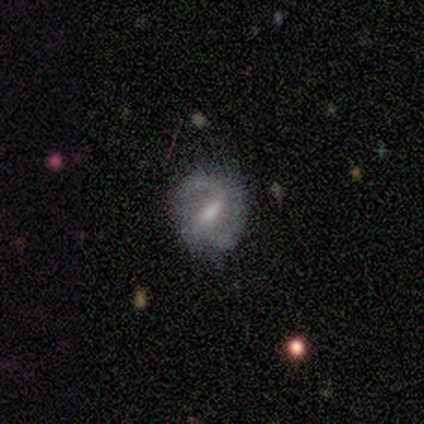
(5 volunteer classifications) Q: Smooth or featured?
A: featured or disk (60%); runner-up: smooth (20%)
Q: Edge-on disk?
A: no (67%); runner-up: yes (33%)
Q: Bar?
A: weak (50%); tied with: no (50%)
Q: Spiral arms?
A: yes (50%); tied with: no (50%)
Q: Spiral winding?
A: medium (100%)
Q: Spiral arm count?
A: 2 (100%)
Q: Bulge size?
A: moderate (50%); tied with: small (50%)
Q: Merging?
A: none (50%); tied with: minor disturbance (50%)